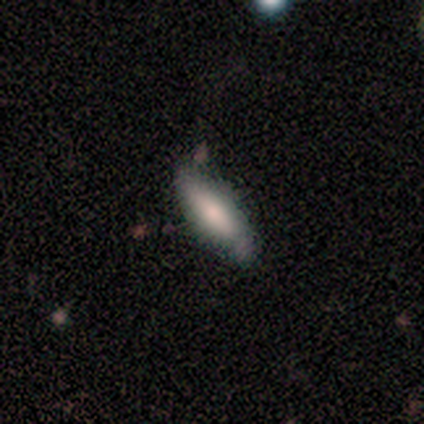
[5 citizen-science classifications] Q: Smooth or featured?
A: smooth (100%)
Q: How rounded?
A: in between (80%); runner-up: cigar-shaped (20%)
Q: Merging?
A: none (80%); runner-up: minor disturbance (20%)